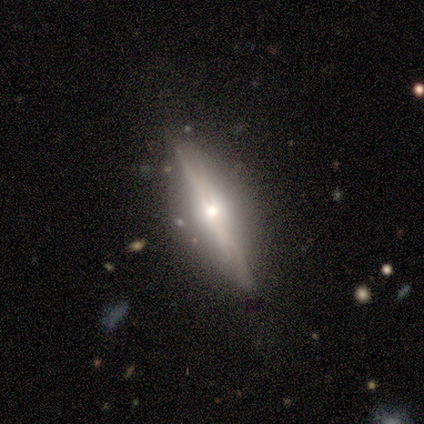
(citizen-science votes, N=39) A featured or disk galaxy (79%) viewed edge-on (97%) with a rounded central bulge (97%).

Vote fractions:
- Smooth or featured? featured or disk: 79% / smooth: 18% / star or artifact: 3%
- Edge-on disk? yes: 97% / no: 3%
- Edge-on bulge? rounded: 97% / boxy: 3% / none: 0%
- Merging? none: 76% / minor disturbance: 16% / major disturbance: 5% / merger: 3%